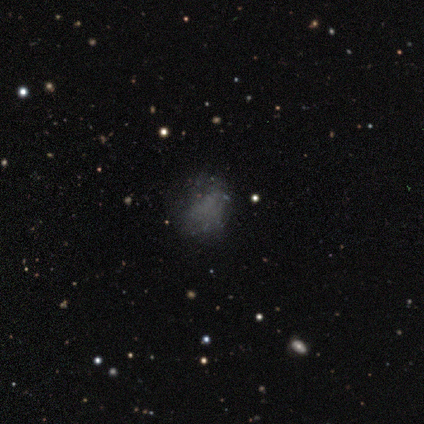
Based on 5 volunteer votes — This is clearly a smooth galaxy (100%). How rounded: likely round (60%). Merging: clearly none (100%).